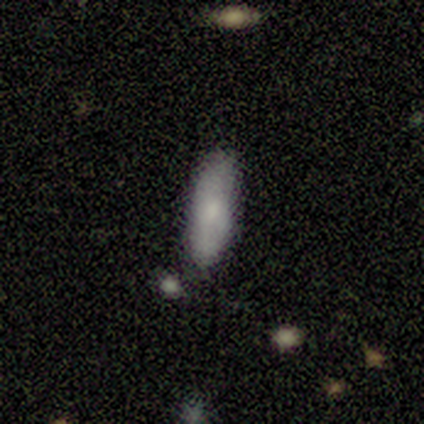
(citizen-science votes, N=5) Volunteers were most divided on "how rounded": cigar-shaped: 60%, in between: 40%, round: 0%. More confident: smooth or featured — smooth (100%); merging — none (80%).